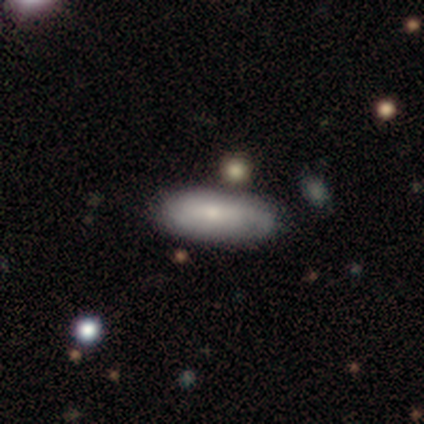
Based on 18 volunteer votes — This appears to be a smooth galaxy with no disk features (83%) that is in between round and cigar-shaped (87%). Merging: none (67%).